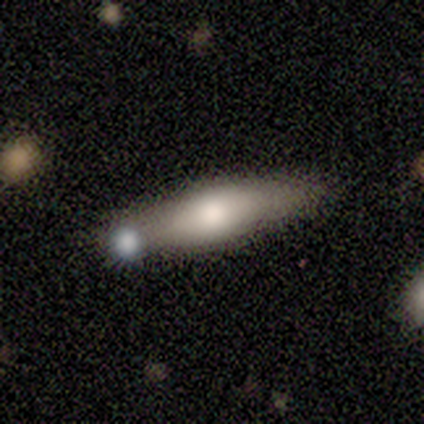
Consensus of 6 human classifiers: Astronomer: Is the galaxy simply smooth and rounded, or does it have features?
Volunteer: smooth — 50%, tied with featured or disk at 50%.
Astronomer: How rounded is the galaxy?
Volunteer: cigar-shaped — 67%.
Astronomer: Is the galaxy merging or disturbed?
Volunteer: none — 50% (runner-up: minor disturbance, 33%).